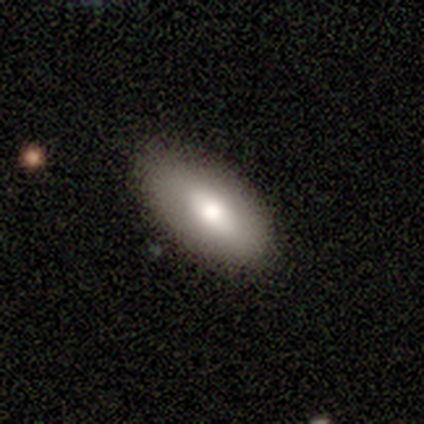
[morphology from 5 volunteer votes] Q: Smooth or featured?
A: smooth (60%); runner-up: featured or disk (40%)
Q: How rounded?
A: in between (100%)
Q: Merging?
A: none (100%)